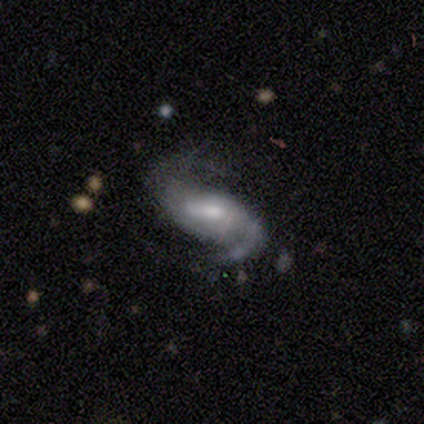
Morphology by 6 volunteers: Smooth or featured: featured or disk — 100%
Edge-on disk: no — 100%
Bar: weak — 67% (strong — 17%)
Spiral arms: yes — 100%
Spiral winding: medium — 50% (loose — 33%)
Spiral arm count: 2 — 83% (1 — 17%)
Bulge size: small — 50% (moderate — 33%)
Merging: minor disturbance — 67% (none — 33%)